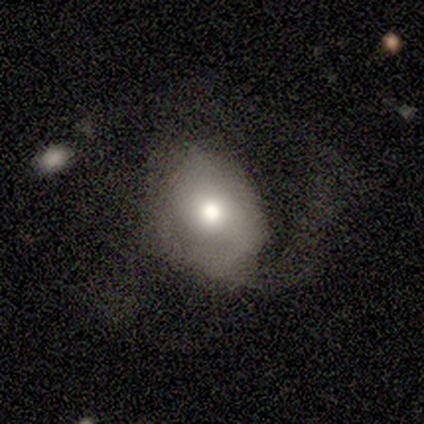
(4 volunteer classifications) This appears to be a featured or disk galaxy (75%) with no bar (67%), no spiral arms (67%) and a moderate central bulge (100%). Merging: minor disturbance (50%, tied with major disturbance).